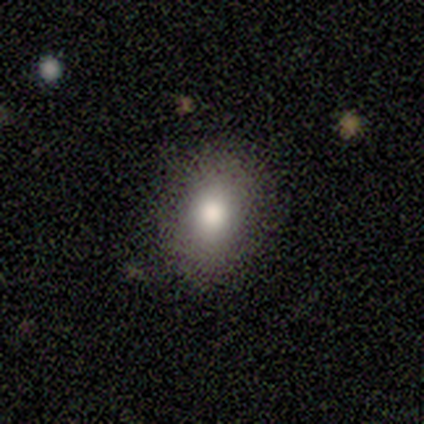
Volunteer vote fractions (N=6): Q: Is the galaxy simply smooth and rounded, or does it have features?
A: smooth — 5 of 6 (83%).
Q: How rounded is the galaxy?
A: in between — 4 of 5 (80%).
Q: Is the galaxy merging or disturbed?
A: none — 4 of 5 (80%).